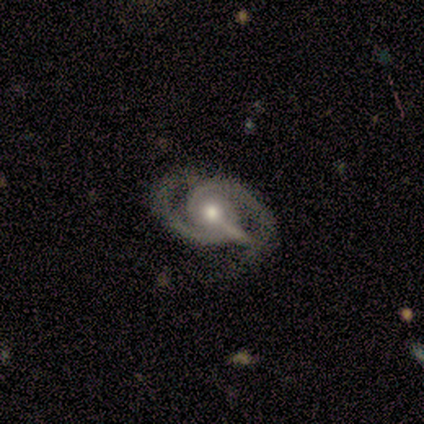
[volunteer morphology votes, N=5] A featured or disk galaxy (80%) with a strong bar (50%), 2 (75%) medium (75%) spiral arms (100%) and a moderate central bulge (100%).

Vote fractions:
- Smooth or featured? featured or disk: 80% / star or artifact: 20% / smooth: 0%
- Edge-on disk? no: 100% / yes: 0%
- Bar? strong: 50% / weak: 25% / no: 25%
- Spiral arms? yes: 100% / no: 0%
- Spiral winding? medium: 75% / tight: 25% / loose: 0%
- Spiral arm count? 2: 75% / 3: 25% / 1: 0% / 4: 0% / more than 4: 0% / can't tell: 0%
- Bulge size? moderate: 100% / dominant: 0% / large: 0% / small: 0% / none: 0%
- Merging? none: 50% / minor disturbance: 25% / major disturbance: 25% / merger: 0%